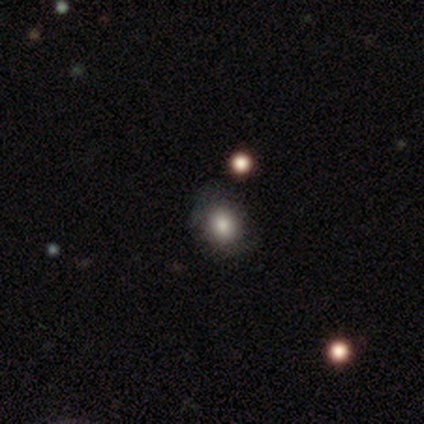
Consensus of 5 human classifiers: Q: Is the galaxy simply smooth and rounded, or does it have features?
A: smooth — 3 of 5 (60%).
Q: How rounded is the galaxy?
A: in between — 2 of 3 (67%).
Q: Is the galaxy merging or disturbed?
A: none — 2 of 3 (67%).